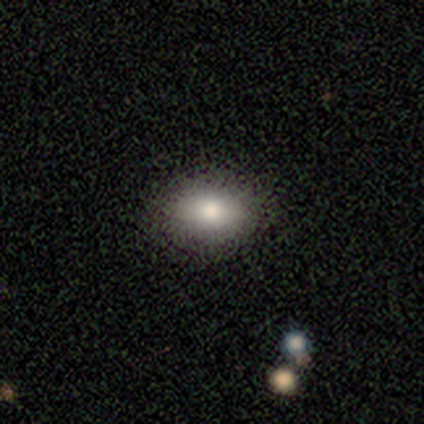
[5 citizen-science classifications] Smooth or featured? smooth (100%)
How rounded? in between (100%)
Merging? none (80%)